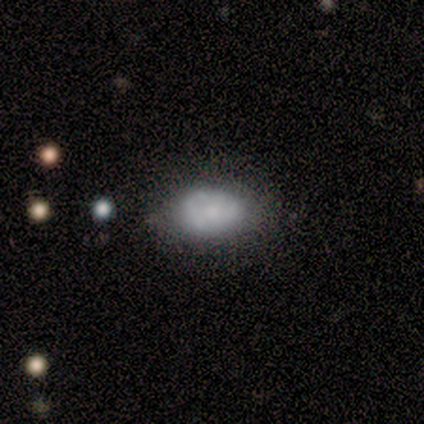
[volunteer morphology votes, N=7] Volunteers were most divided on "bulge size": small: 50%, moderate: 25%, none: 25%, dominant: 0%, large: 0%. More confident: edge-on disk — no (100%); bar — no (100%); merging — minor disturbance (80%); spiral arms — no (75%); smooth or featured — featured or disk (57%).